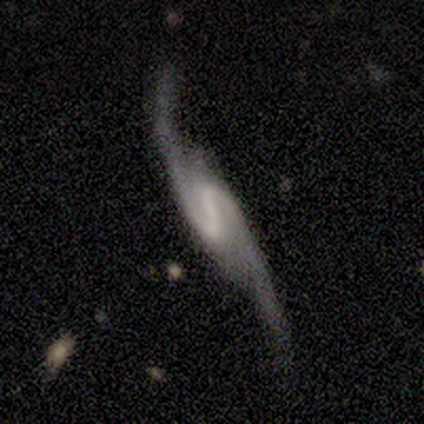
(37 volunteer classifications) Smooth or featured?
  - featured or disk: 95% *
  - smooth: 3%
  - star or artifact: 3%
Edge-on disk?
  - no: 89% *
  - yes: 11%
Bar?
  - strong: 45% *
  - weak: 42%
  - no: 13%
Spiral arms?
  - yes: 97% *
  - no: 3%
Spiral winding?
  - loose: 73% *
  - medium: 27%
  - tight: 0%
Spiral arm count?
  - 2: 100% *
  - 1: 0%
  - 3: 0%
  - 4: 0%
  - more than 4: 0%
  - can't tell: 0%
Bulge size?
  - none: 68% *
  - small: 19%
  - moderate: 10%
  - large: 3%
  - dominant: 0%
Merging?
  - none: 69% *
  - minor disturbance: 19%
  - major disturbance: 8%
  - merger: 3%